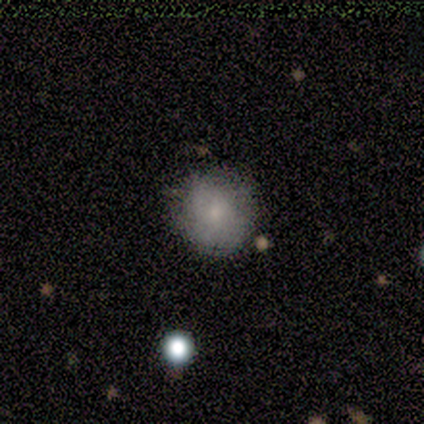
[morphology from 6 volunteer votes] Q: Smooth or featured?
A: smooth (83%); runner-up: featured or disk (17%)
Q: How rounded?
A: round (80%); runner-up: in between (20%)
Q: Merging?
A: none (100%)